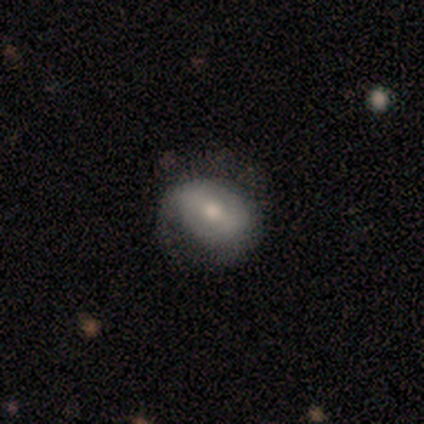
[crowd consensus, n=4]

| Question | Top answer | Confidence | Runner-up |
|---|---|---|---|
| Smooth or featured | smooth | 50% | featured or disk (25%) |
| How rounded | round | 50% | tied: in between (50%) |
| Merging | none | 67% | minor disturbance (33%) |